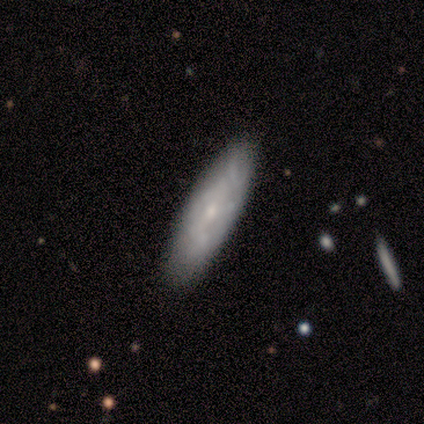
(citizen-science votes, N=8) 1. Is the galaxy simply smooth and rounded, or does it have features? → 50% smooth (tied), 50% featured or disk (tied), 0% star or artifact.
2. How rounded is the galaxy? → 75% cigar-shaped, 25% in between, 0% round.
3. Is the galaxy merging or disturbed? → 100% none, 0% minor disturbance, 0% major disturbance, 0% merger.